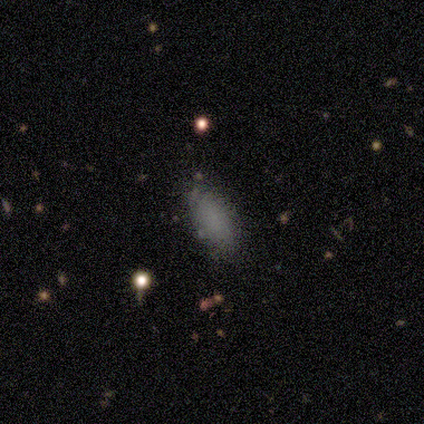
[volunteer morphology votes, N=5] This is clearly a smooth galaxy (80%). How rounded: clearly in between (100%). Merging: clearly none (100%).